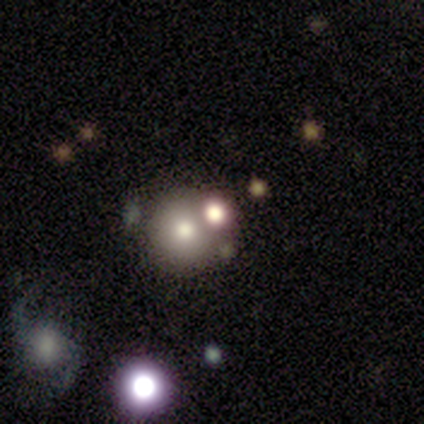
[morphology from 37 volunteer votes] Smooth or featured? smooth (59%)
How rounded? round (86%)
Merging? none (55%)